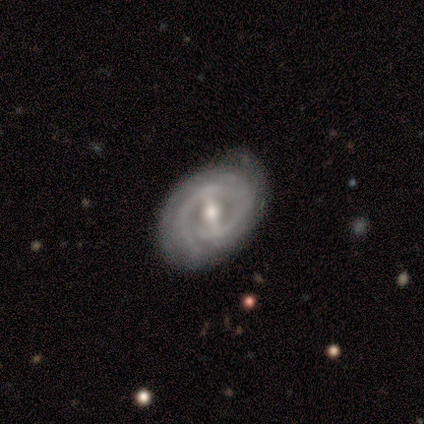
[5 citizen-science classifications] A featured or disk galaxy (100%) with a strong bar (80%), 2 (33%, tied with 3 and can't tell) tight (100%) spiral arms (60%) and a moderate central bulge (80%).

Vote fractions:
- Smooth or featured? featured or disk: 100% / smooth: 0% / star or artifact: 0%
- Edge-on disk? no: 100% / yes: 0%
- Bar? strong: 80% / no: 20% / weak: 0%
- Spiral arms? yes: 60% / no: 40%
- Spiral winding? tight: 100% / medium: 0% / loose: 0%
- Spiral arm count? 2: 33% (tied) / 3: 33% (tied) / can't tell: 33% (tied) / 1: 0% / 4: 0% / more than 4: 0%
- Bulge size? moderate: 80% / small: 20% / dominant: 0% / large: 0% / none: 0%
- Merging? none: 100% / minor disturbance: 0% / major disturbance: 0% / merger: 0%